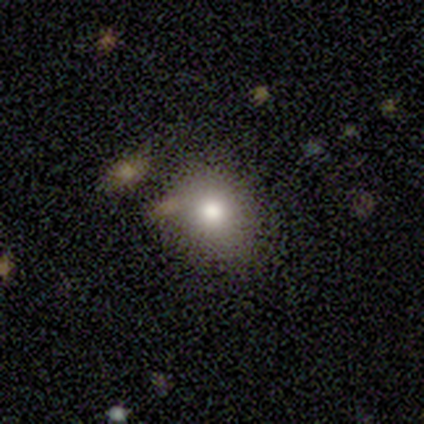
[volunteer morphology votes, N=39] smooth_or_featured: smooth (p=0.74) [alt: featured or disk p=0.15]
how_rounded: round (p=0.72) [alt: in between p=0.28]
merging: none (p=0.80) [alt: minor disturbance p=0.09]